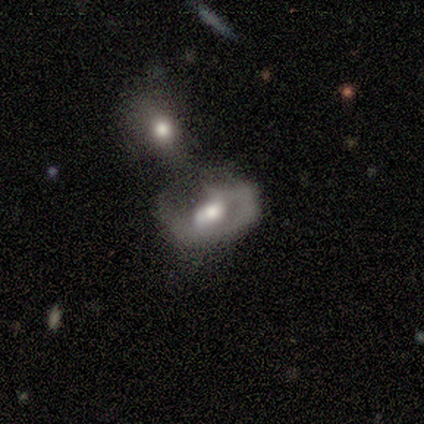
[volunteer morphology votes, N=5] A smooth galaxy with no disk features (60%) that is round (67%). Merging: merger (60%).